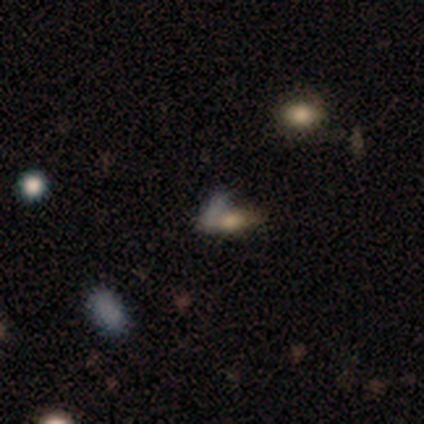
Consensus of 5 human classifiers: This is likely a smooth galaxy (60%). How rounded: likely in between (67%). Merging: likely none (67%).